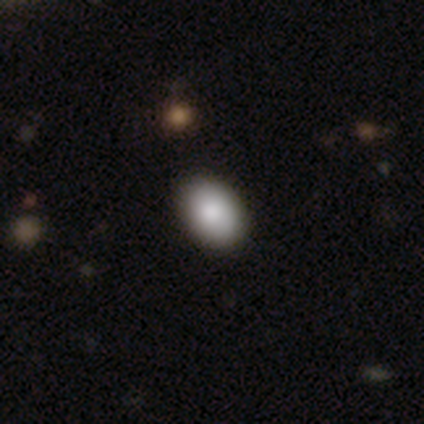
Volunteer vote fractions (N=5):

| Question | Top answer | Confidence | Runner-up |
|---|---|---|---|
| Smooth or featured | smooth | 80% | star or artifact (20%) |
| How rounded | in between | 100% | — |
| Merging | none | 100% | — |